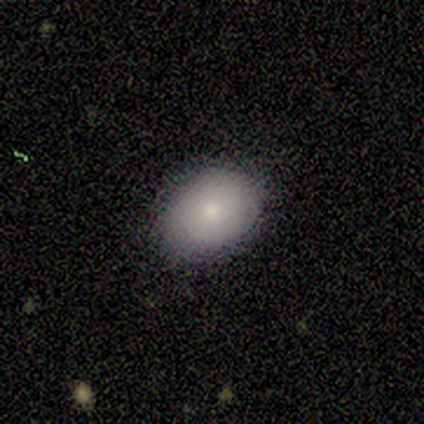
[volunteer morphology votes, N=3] Volunteers were most divided on "smooth or featured": smooth: 67%, featured or disk: 33%, star or artifact: 0%. More confident: how rounded — in between (100%); merging — none (100%).